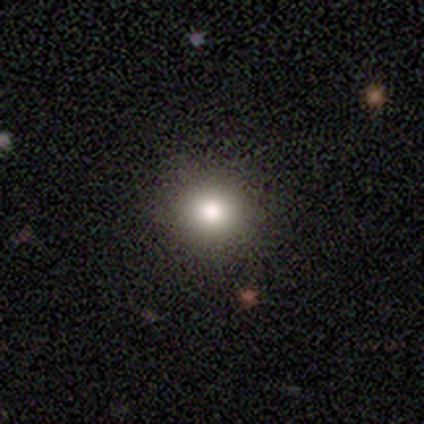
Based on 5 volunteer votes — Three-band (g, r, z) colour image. It shows a smooth galaxy with no disk features (40%, tied with star or artifact) that is round (100%). Merging: none (67%).